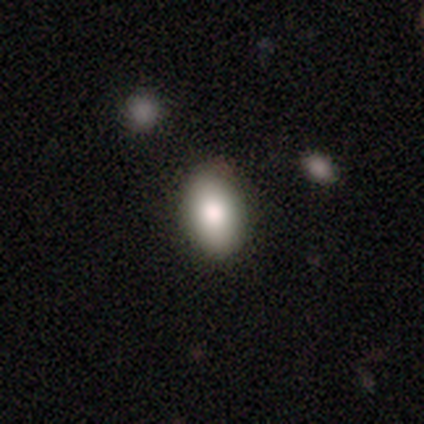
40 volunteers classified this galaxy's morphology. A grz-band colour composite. It shows a smooth galaxy with no disk features (90%) that is in between round and cigar-shaped (89%). Merging: none (64%).